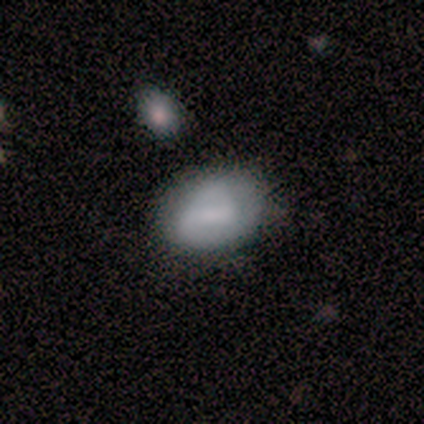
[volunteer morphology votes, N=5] A smooth galaxy with no disk features (60%) that is in between round and cigar-shaped (67%).

Vote fractions:
- Smooth or featured? smooth: 60% / featured or disk: 20% / star or artifact: 20%
- How rounded? in between: 67% / round: 33% / cigar-shaped: 0%
- Merging? none: 75% / minor disturbance: 25% / major disturbance: 0% / merger: 0%